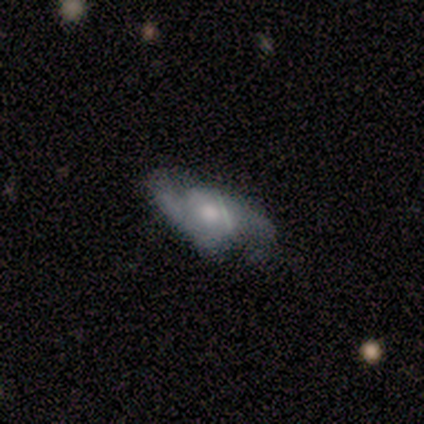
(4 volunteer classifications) Volunteers were most divided on "spiral winding" (2-way tie): medium: 50%, loose: 50%, tight: 0%. More confident: smooth or featured — featured or disk (100%); edge-on disk — no (100%); spiral arms — yes (100%); spiral arm count — 2 (100%); bar — weak (75%); bulge size — moderate (75%); merging — none (75%).